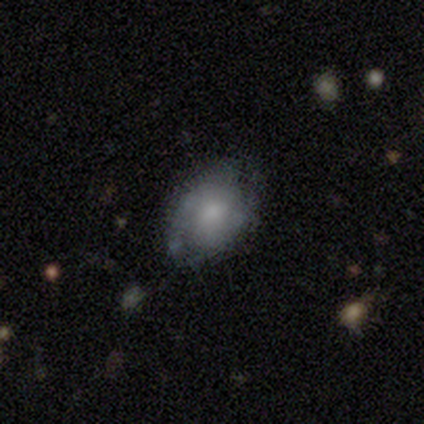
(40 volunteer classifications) Q: Smooth or featured?
A: smooth (50%); runner-up: featured or disk (45%)
Q: How rounded?
A: in between (85%); runner-up: round (15%)
Q: Merging?
A: none (53%); runner-up: minor disturbance (37%)